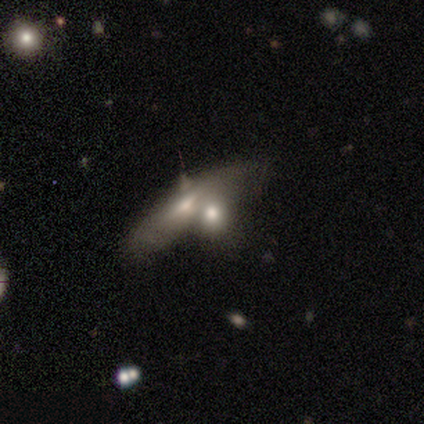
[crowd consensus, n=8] Smooth or featured? 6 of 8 (75%) said smooth. How rounded? 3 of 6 (50%) said cigar-shaped. Merging? 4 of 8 (50%, tied with merger) said none.